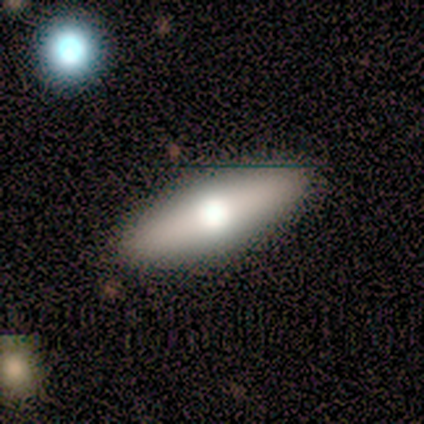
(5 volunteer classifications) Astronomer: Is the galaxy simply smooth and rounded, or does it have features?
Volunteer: smooth — 60% (runner-up: featured or disk, 40%).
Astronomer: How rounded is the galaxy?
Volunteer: in between — 100%.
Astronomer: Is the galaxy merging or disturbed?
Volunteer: none — 100%.